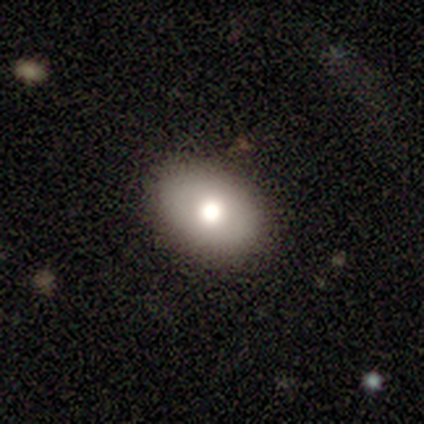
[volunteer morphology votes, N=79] smooth 80%, featured or disk 16%, star or artifact 4%. Down the decision tree: how rounded — in between (86%); merging — none (47%).